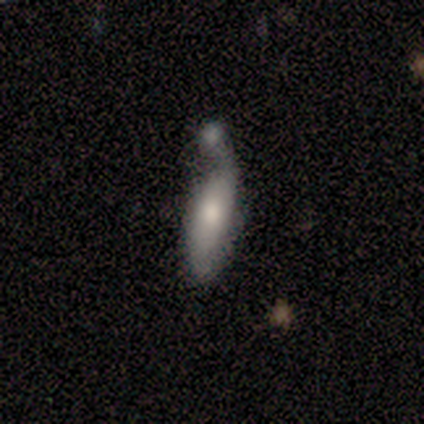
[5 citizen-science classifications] smooth 80%, featured or disk 20%, star or artifact 0%. Down the decision tree: how rounded — in between (75%); merging — minor disturbance (40%, tied with merger).